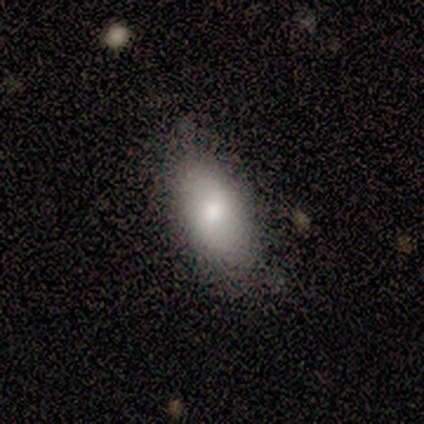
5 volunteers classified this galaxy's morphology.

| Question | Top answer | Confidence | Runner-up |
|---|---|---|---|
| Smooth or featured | smooth | 80% | featured or disk (20%) |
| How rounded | in between | 100% | — |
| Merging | none | 60% | minor disturbance (40%) |